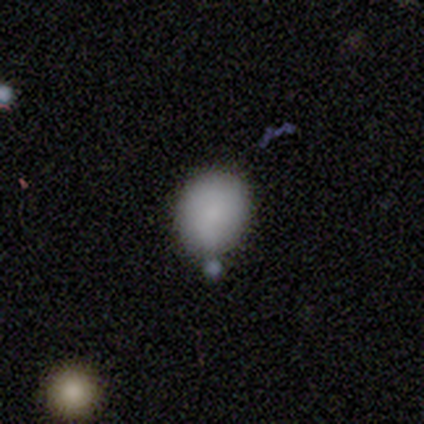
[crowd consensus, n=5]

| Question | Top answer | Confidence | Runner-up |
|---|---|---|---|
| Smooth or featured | smooth | 80% | star or artifact (20%) |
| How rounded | round | 100% | — |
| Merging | none | 75% | minor disturbance (25%) |